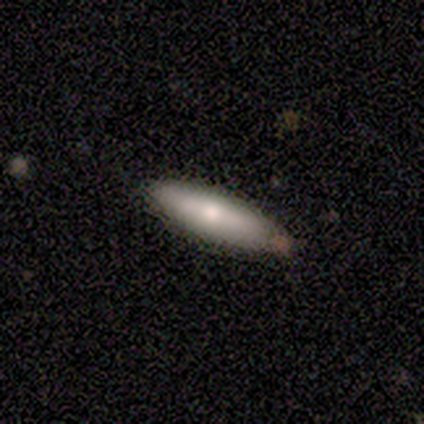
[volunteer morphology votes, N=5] A smooth galaxy with no disk features (60%) that is cigar-shaped (100%). Merging: none (100%).